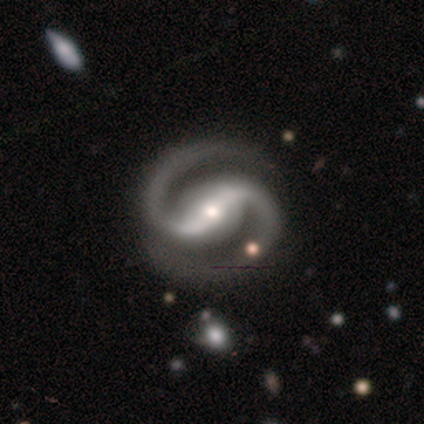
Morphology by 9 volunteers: Q: Smooth or featured?
A: featured or disk (100%)
Q: Edge-on disk?
A: no (100%)
Q: Bar?
A: strong (56%); runner-up: weak (33%)
Q: Spiral arms?
A: yes (89%); runner-up: no (11%)
Q: Spiral winding?
A: medium (62%); runner-up: tight (38%)
Q: Spiral arm count?
A: 2 (100%)
Q: Bulge size?
A: small (56%); runner-up: moderate (44%)
Q: Merging?
A: none (100%)